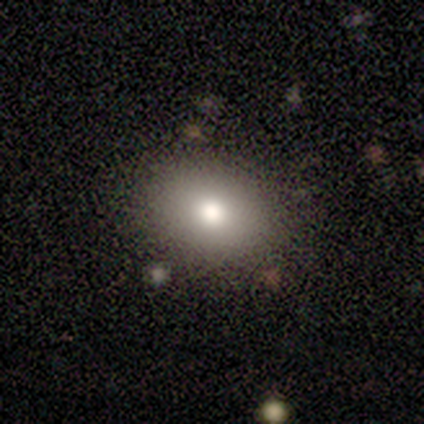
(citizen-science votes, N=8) Smooth or featured? 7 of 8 (88%) said smooth. How rounded? 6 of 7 (86%) said in between. Merging? 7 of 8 (88%) said none.